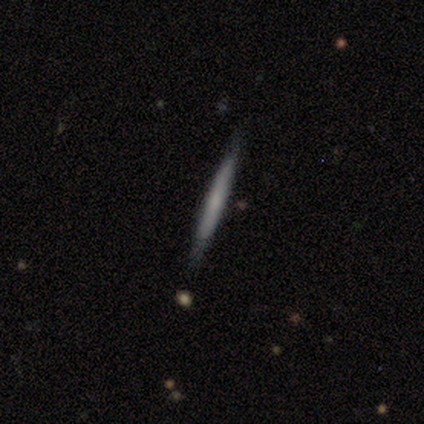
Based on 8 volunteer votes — Q: Smooth or featured?
A: featured or disk (88%); runner-up: smooth (12%)
Q: Edge-on disk?
A: yes (86%); runner-up: no (14%)
Q: Edge-on bulge?
A: none (100%)
Q: Merging?
A: none (88%); runner-up: major disturbance (12%)